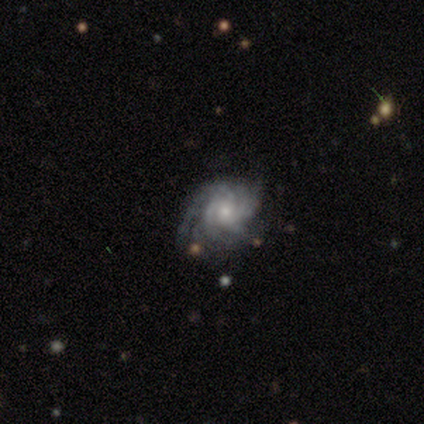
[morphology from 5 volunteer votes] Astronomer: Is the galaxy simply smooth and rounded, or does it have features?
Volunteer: featured or disk — 100%.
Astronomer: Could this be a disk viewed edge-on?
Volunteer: no — 100%.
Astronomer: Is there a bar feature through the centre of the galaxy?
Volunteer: no — 60% (runner-up: weak, 40%).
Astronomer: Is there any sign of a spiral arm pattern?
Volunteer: yes — 100%.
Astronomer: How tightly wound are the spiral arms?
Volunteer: tight — 60% (runner-up: medium, 40%).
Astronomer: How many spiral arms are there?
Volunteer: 3 — 40% (runner-up: 2, 20%).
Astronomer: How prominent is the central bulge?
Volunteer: moderate — 60% (runner-up: small, 40%).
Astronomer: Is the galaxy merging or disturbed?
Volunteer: none — 80%.